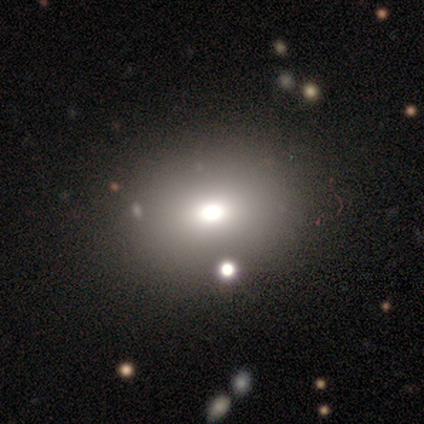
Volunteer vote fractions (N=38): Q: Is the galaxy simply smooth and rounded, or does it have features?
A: smooth — 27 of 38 (71%).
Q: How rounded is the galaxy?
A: in between — 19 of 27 (70%).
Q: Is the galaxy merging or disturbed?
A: none — 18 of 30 (60%).